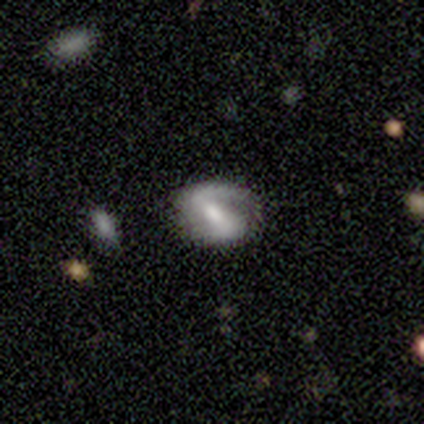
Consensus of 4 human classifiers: This appears to be a featured or disk galaxy (100%) with a strong bar (75%), 2 (100%) loose (50%) spiral arms (100%) and a moderate central bulge (50%). Merging: none (100%).